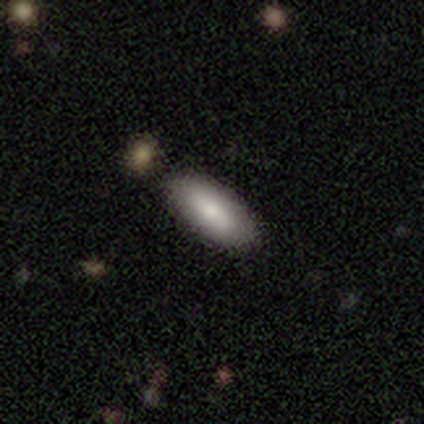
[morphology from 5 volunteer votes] smooth 40% (tied), featured or disk 40% (tied), star or artifact 20%. Down the decision tree: how rounded — in between (100%); merging — none (100%).